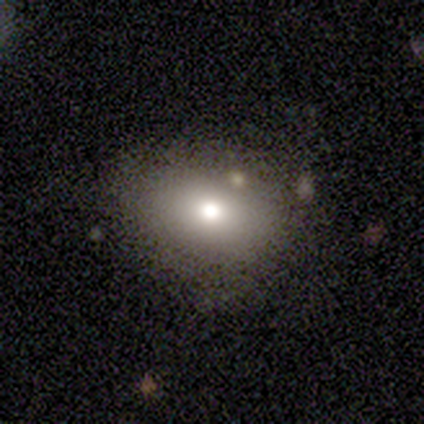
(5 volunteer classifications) smooth 60%, featured or disk 40%, star or artifact 0%. Down the decision tree: how rounded — round (67%); merging — none (100%).